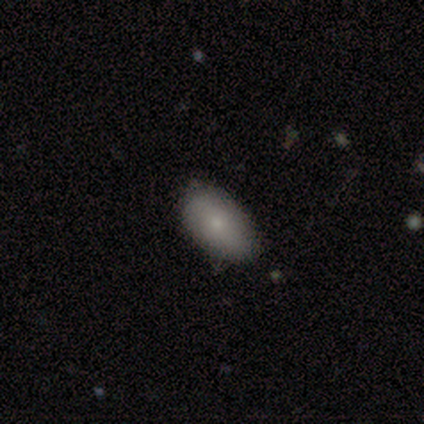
Q: Smooth or featured?
A: smooth (100%)
Q: How rounded?
A: in between (100%)
Q: Merging?
A: none (100%)